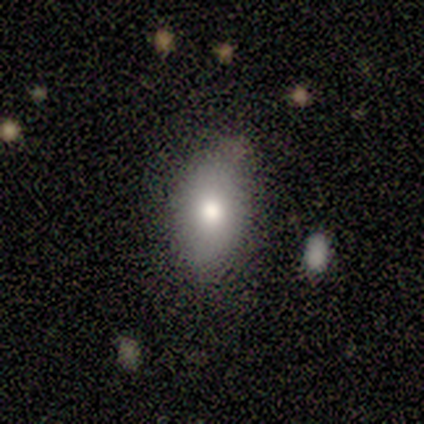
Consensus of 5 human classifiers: smooth-or-featured: smooth: 80% | star or artifact: 20% | featured or disk: 0%
  how-rounded: in between: 100% | round: 0% | cigar-shaped: 0%
  merging: none: 75% | minor disturbance: 25% | major disturbance: 0% | merger: 0%